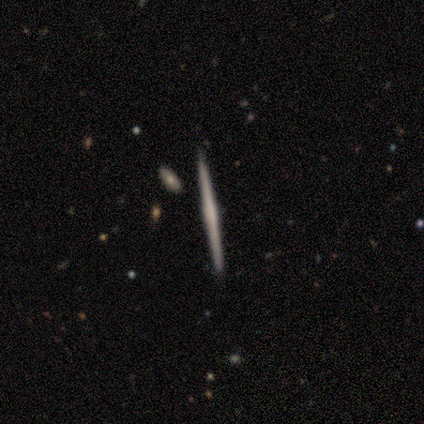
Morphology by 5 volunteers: smooth_or_featured: featured or disk (p=0.60) [alt: smooth p=0.40]
disk_edge_on: yes (p=1.00)
edge_on_bulge: none (p=0.67) [alt: rounded p=0.33]
merging: none (p=1.00)